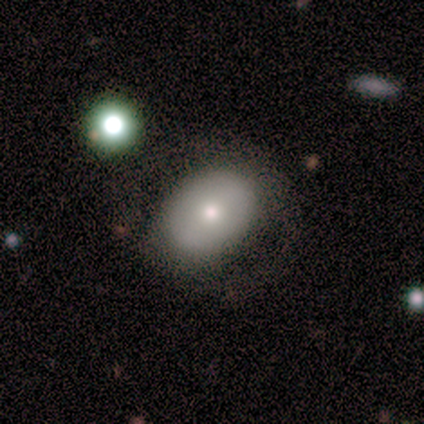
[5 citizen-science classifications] smooth-or-featured: smooth: 100% | featured or disk: 0% | star or artifact: 0%
  how-rounded: in between: 100% | round: 0% | cigar-shaped: 0%
  merging: none: 60% | minor disturbance: 40% | major disturbance: 0% | merger: 0%